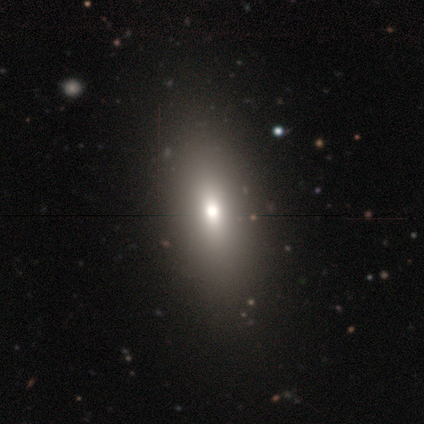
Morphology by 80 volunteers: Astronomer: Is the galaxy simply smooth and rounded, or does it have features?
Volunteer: smooth — 75%.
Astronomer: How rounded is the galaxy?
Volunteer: in between — 82%.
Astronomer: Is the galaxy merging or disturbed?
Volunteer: none — 42%.